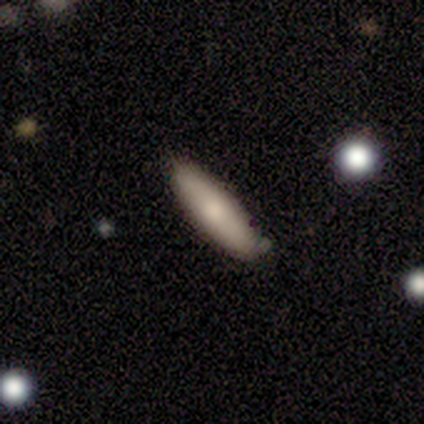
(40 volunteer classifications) A smooth galaxy with no disk features (75%) that is in between round and cigar-shaped (50%, tied with cigar-shaped). Merging: none (38%).